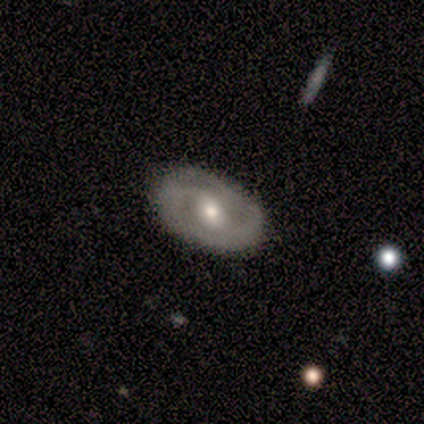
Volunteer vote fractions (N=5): smooth-or-featured: smooth: 60% | featured or disk: 40% | star or artifact: 0%
  how-rounded: in between: 100% | round: 0% | cigar-shaped: 0%
  merging: none: 100% | minor disturbance: 0% | major disturbance: 0% | merger: 0%